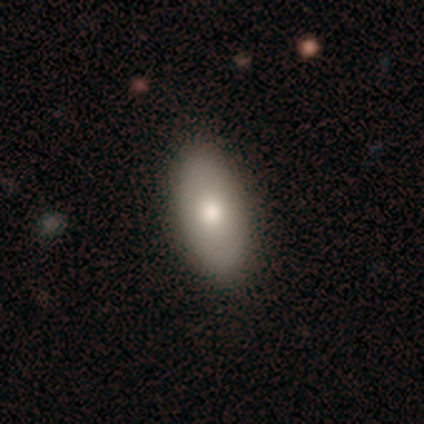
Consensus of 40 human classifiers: smooth_or_featured: smooth (p=0.72) [alt: featured or disk p=0.20]
how_rounded: in between (p=0.90) [alt: cigar-shaped p=0.10]
merging: none (p=0.62) [alt: merger p=0.05]